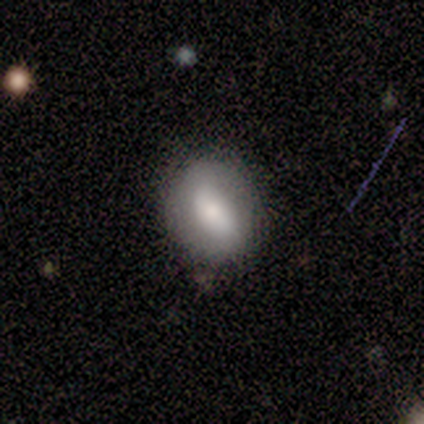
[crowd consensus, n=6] Q: Smooth or featured?
A: featured or disk (67%); runner-up: smooth (33%)
Q: Edge-on disk?
A: no (100%)
Q: Bar?
A: strong (50%); tied with: weak (50%)
Q: Spiral arms?
A: no (100%)
Q: Bulge size?
A: small (50%); runner-up: dominant (25%)
Q: Merging?
A: none (83%); runner-up: minor disturbance (17%)